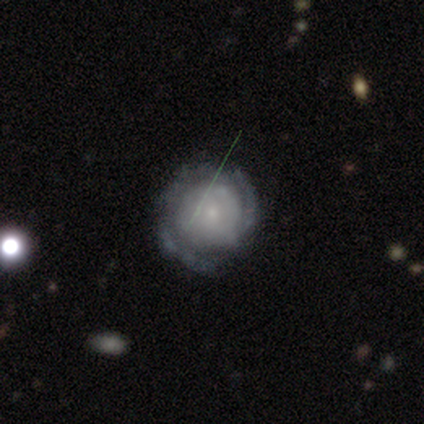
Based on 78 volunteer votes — Volunteers were most divided on "merging": none: 41%, minor disturbance: 12%, major disturbance: 3%, merger: 1%. More confident: edge-on disk — no (97%); spiral arms — yes (84%); bar — no (82%); smooth or featured — featured or disk (82%); spiral winding — tight (81%); bulge size — small (74%); spiral arm count — can't tell (58%).